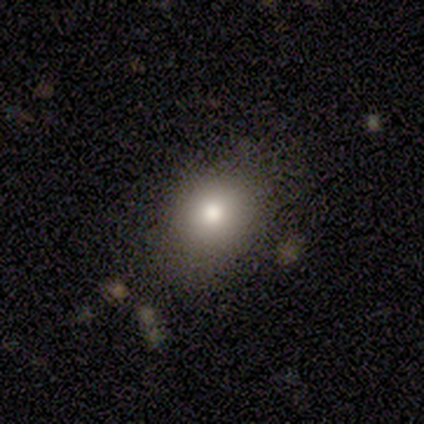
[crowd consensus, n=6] A smooth galaxy with no disk features (83%) that is in between round and cigar-shaped (60%).

Vote fractions:
- Smooth or featured? smooth: 83% / featured or disk: 17% / star or artifact: 0%
- How rounded? in between: 60% / round: 40% / cigar-shaped: 0%
- Merging? none: 100% / minor disturbance: 0% / major disturbance: 0% / merger: 0%